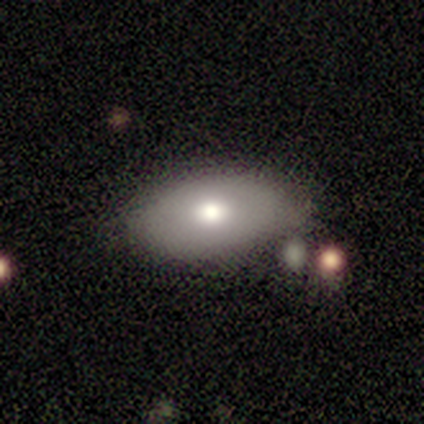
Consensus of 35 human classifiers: A smooth galaxy with no disk features (71%) that is in between round and cigar-shaped (100%).

Vote fractions:
- Smooth or featured? smooth: 71% / featured or disk: 23% / star or artifact: 6%
- How rounded? in between: 100% / round: 0% / cigar-shaped: 0%
- Merging? none: 67% / minor disturbance: 21% / major disturbance: 6% / merger: 6%